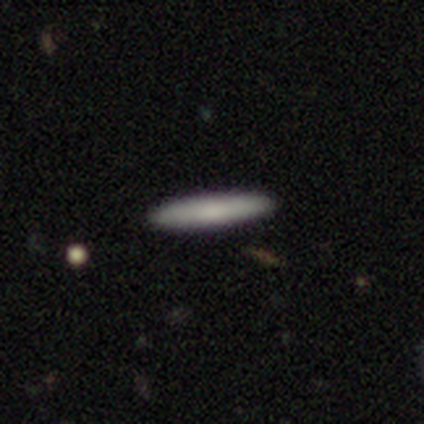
Morphology: type=smooth (60%); roundness=cigar-shaped (100%); merging=none (100%).